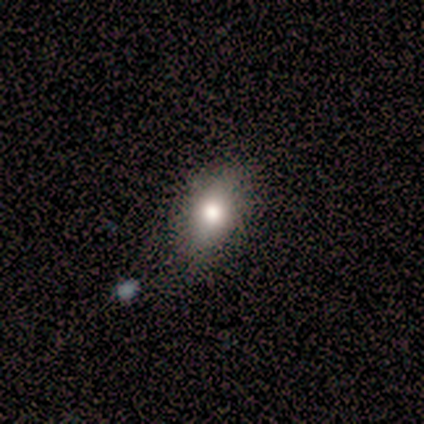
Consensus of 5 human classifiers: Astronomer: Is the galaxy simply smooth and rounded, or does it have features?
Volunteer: smooth — 60%.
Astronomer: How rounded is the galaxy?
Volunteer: in between — 100%.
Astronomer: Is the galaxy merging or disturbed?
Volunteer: none — 100%.